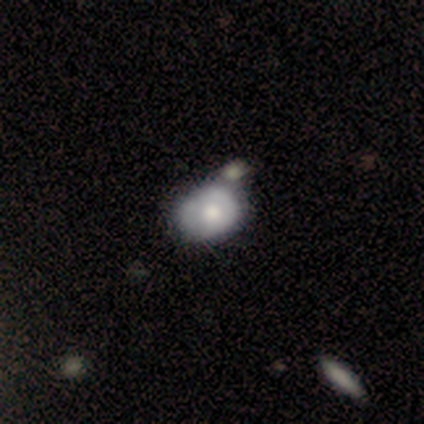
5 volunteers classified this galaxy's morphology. smooth-or-featured: featured or disk: 60% | smooth: 40% | star or artifact: 0%
  disk-edge-on: no: 100% | yes: 0%
    bar: no: 100% | strong: 0% | weak: 0%
    has-spiral-arms: no: 67% | yes: 33%
    bulge-size: small: 67% | moderate: 33% | dominant: 0% | large: 0% | none: 0%
  merging: none: 60% | merger: 40% | minor disturbance: 0% | major disturbance: 0%